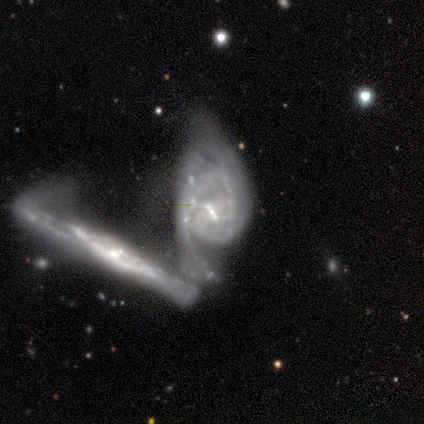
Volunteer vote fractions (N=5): Volunteers were most divided on "spiral arm count" (3-way tie): 2: 33%, 3: 33%, can't tell: 33%, 1: 0%, 4: 0%, more than 4: 0%; "bulge size" (2-way tie): moderate: 40%, none: 40%, small: 20%, dominant: 0%, large: 0%. More confident: smooth or featured — featured or disk (100%); edge-on disk — no (100%); merging — merger (80%); spiral winding — loose (67%); spiral arms — yes (60%); bar — no (60%).